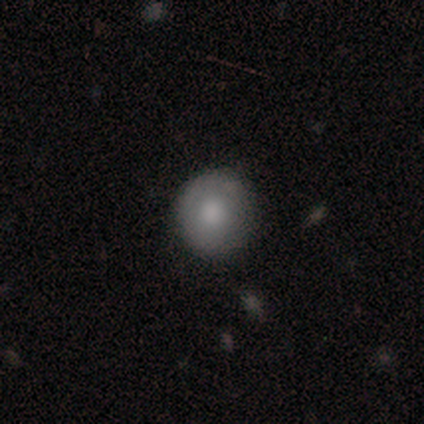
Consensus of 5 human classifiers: Smooth or featured? 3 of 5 (60%) said smooth. How rounded? 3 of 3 (100%) said round. Merging? 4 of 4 (100%) said none.